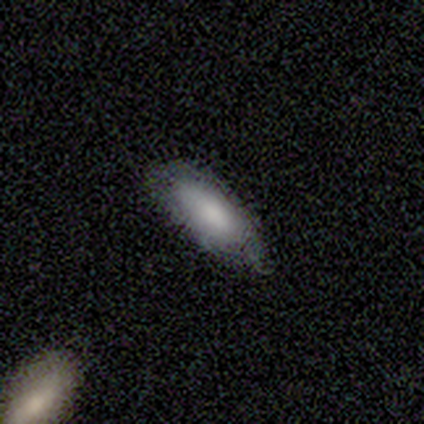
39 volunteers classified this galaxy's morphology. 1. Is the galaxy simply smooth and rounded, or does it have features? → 72% smooth, 15% featured or disk, 13% star or artifact.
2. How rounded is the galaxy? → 79% in between, 21% cigar-shaped, 0% round.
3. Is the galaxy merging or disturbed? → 68% none, 29% minor disturbance, 3% merger, 0% major disturbance.